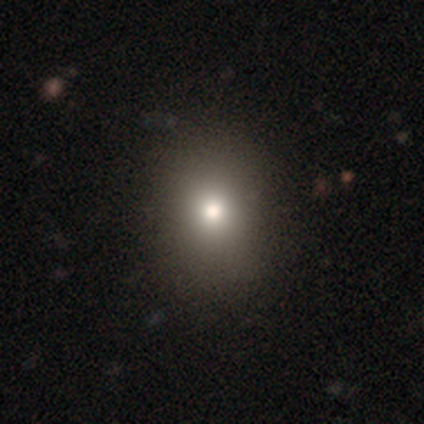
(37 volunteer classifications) smooth_or_featured: smooth (p=0.81) [alt: featured or disk p=0.14]
how_rounded: round (p=0.50) [tied with: in between p=0.50]
merging: none (p=0.77) [alt: major disturbance p=0.03]